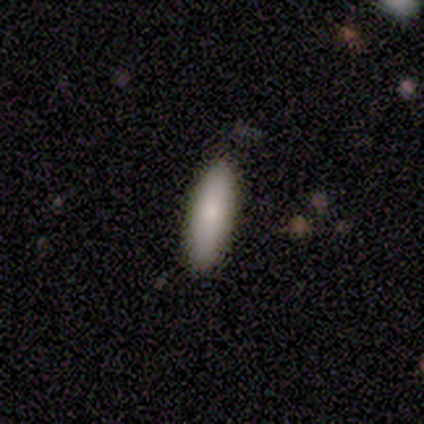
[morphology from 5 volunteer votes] Q: Smooth or featured?
A: smooth (100%)
Q: How rounded?
A: cigar-shaped (80%); runner-up: in between (20%)
Q: Merging?
A: none (100%)